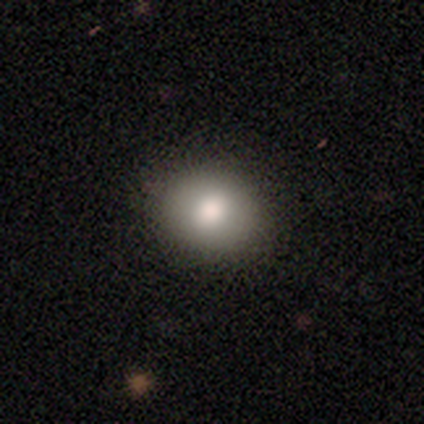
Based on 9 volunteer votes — Smooth or featured?
  - smooth: 89% *
  - star or artifact: 11%
  - featured or disk: 0%
How rounded?
  - round: 62% *
  - in between: 38%
  - cigar-shaped: 0%
Merging?
  - none: 100% *
  - minor disturbance: 0%
  - major disturbance: 0%
  - merger: 0%